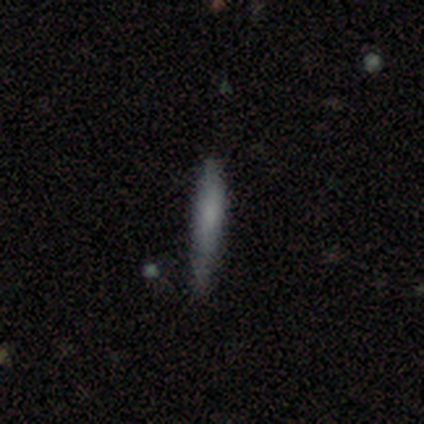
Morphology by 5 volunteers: This is likely a featured or disk galaxy (60%). It is clearly viewed edge-on (100%). Edge-on bulge: clearly none (100%). Merging: likely none (60%).